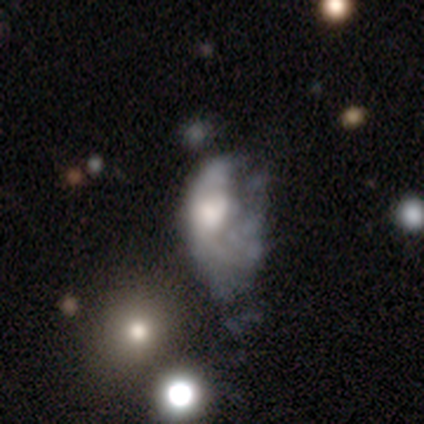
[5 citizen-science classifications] This is likely a smooth galaxy (60%). How rounded: clearly in between (100%). Merging: possibly major disturbance (50%).